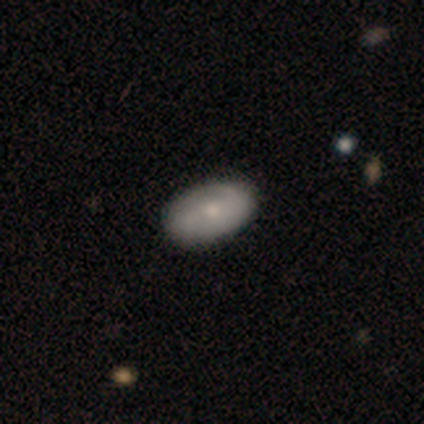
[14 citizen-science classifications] Smooth or featured? smooth (64%)
How rounded? in between (100%)
Merging? none (64%)